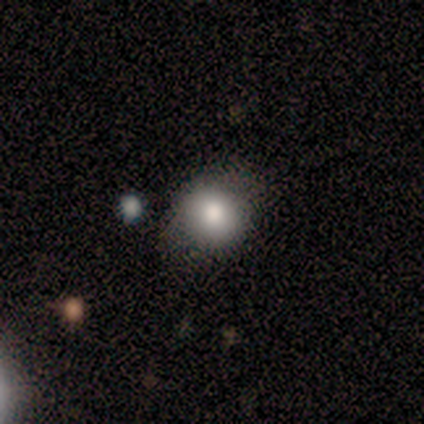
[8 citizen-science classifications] Morphology: type=smooth (75%); roundness=round (67%); merging=none (57%).